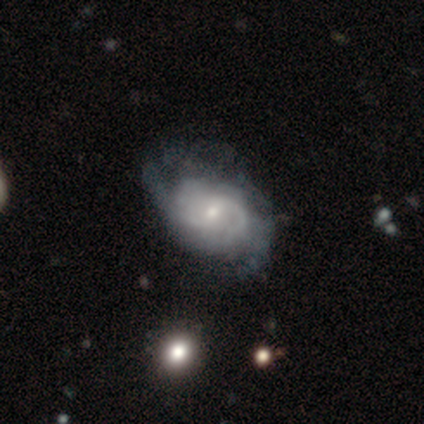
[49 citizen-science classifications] Q: Smooth or featured?
A: featured or disk (82%); runner-up: smooth (14%)
Q: Edge-on disk?
A: no (100%)
Q: Bar?
A: weak (55%); runner-up: no (42%)
Q: Spiral arms?
A: yes (98%); runner-up: no (2%)
Q: Spiral winding?
A: medium (44%); runner-up: tight (33%)
Q: Spiral arm count?
A: 2 (49%); runner-up: can't tell (26%)
Q: Bulge size?
A: moderate (50%); runner-up: small (45%)
Q: Merging?
A: none (51%); runner-up: minor disturbance (30%)